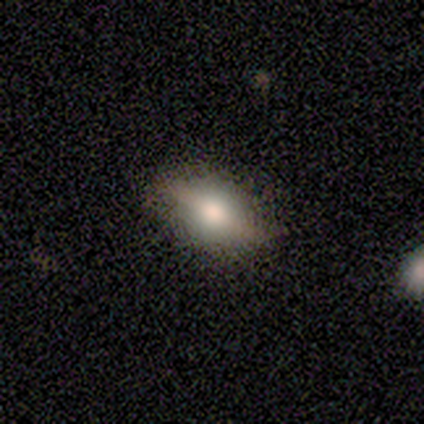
Overall: featured or disk (62%; smooth 38%). Edge-on disk: yes (79%). Edge-on bulge: rounded (100%). Merging: none (67%).